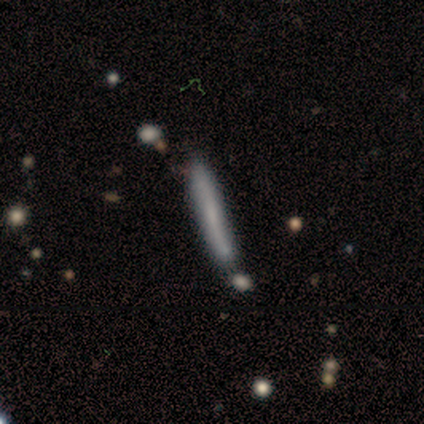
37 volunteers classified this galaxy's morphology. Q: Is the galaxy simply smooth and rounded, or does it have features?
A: featured or disk — 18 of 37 (49%).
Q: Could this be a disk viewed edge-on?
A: yes — 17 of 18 (94%).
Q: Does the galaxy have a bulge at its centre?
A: none — 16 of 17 (94%).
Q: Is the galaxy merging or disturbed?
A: none — 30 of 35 (86%).